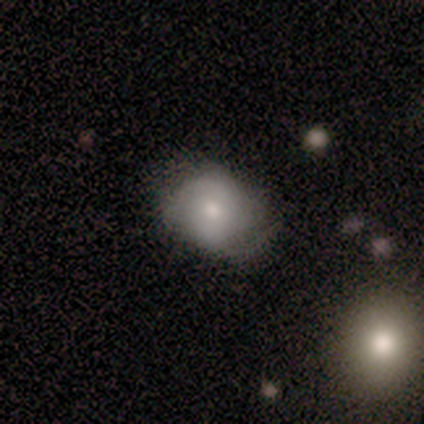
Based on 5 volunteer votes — Smooth or featured? smooth (60%)
How rounded? in between (100%)
Merging? minor disturbance (60%)